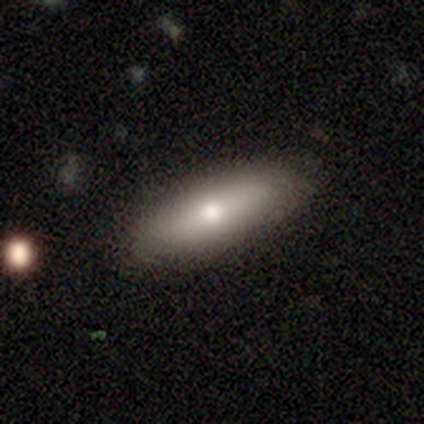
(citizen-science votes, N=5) A smooth galaxy with no disk features (100%) that is in between round and cigar-shaped (60%).

Vote fractions:
- Smooth or featured? smooth: 100% / featured or disk: 0% / star or artifact: 0%
- How rounded? in between: 60% / cigar-shaped: 40% / round: 0%
- Merging? none: 100% / minor disturbance: 0% / major disturbance: 0% / merger: 0%